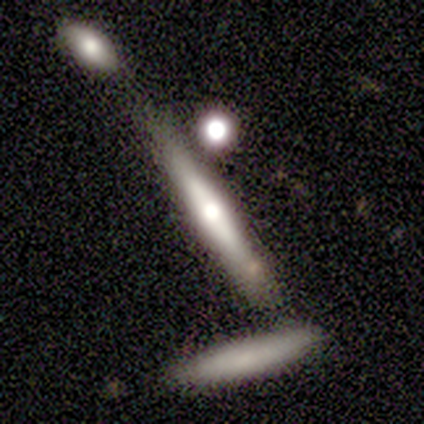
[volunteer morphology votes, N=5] Smooth or featured? 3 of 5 (60%) said smooth. How rounded? 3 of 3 (100%) said cigar-shaped. Merging? 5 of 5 (100%) said none.